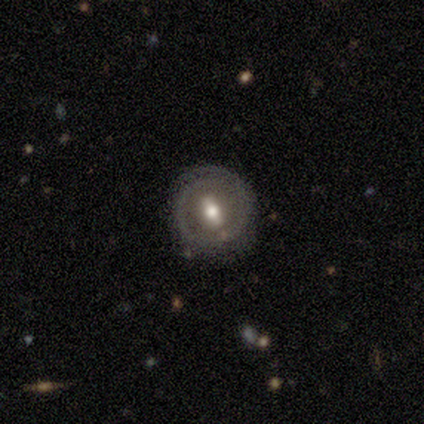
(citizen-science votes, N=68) smooth_or_featured: featured or disk (p=0.65) [alt: smooth p=0.32]
disk_edge_on: no (p=0.98) [alt: yes p=0.02]
bar: strong (p=0.47) [alt: weak p=0.33]
has_spiral_arms: yes (p=0.51) [alt: no p=0.49]
spiral_winding: tight (p=0.59) [alt: medium p=0.27]
spiral_arm_count: 2 (p=0.45) [alt: 1 p=0.23]
bulge_size: moderate (p=0.72) [alt: small p=0.16]
merging: none (p=0.71) [alt: minor disturbance p=0.20]